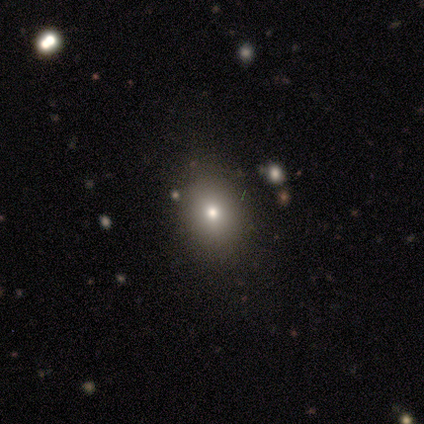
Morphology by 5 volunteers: Smooth or featured? smooth (80%)
How rounded? in between (75%)
Merging? none (75%)